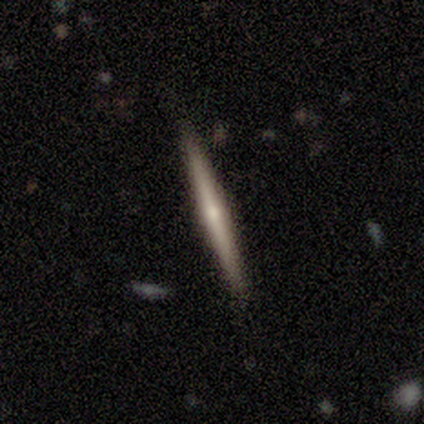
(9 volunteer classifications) A featured or disk galaxy (67%) viewed edge-on (100%) with a rounded central bulge (83%). Merging: none (100%).